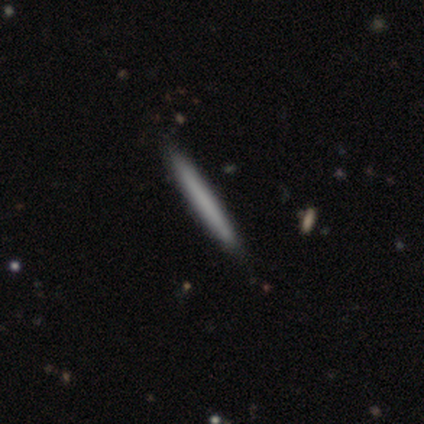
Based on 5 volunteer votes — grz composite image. It shows a smooth galaxy with no disk features (100%) that is cigar-shaped (100%). Merging: minor disturbance (60%).